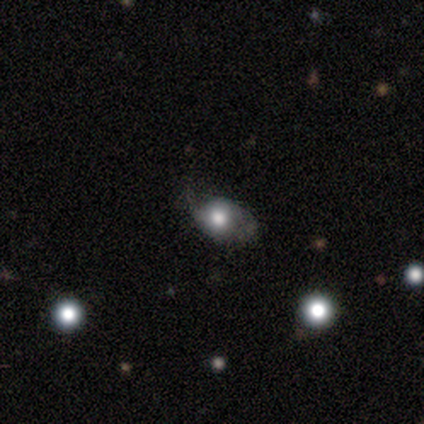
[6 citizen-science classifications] Smooth or featured?
  - smooth: 83% *
  - featured or disk: 17%
  - star or artifact: 0%
How rounded?
  - round: 60% *
  - in between: 40%
  - cigar-shaped: 0%
Merging?
  - none: 33% * (tied)
  - minor disturbance: 33% * (tied)
  - major disturbance: 33% * (tied)
  - merger: 0%